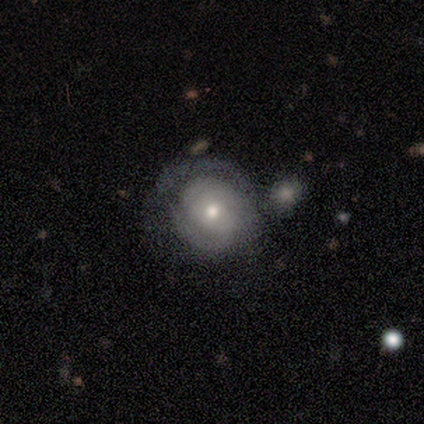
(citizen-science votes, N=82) Morphology: type=featured or disk (72%); edge-on=no (98%); bar=no (88%); spiral arms=yes (76%); winding=tight (84%); arm count=2 (45%); bulge=moderate (72%); merging=none (35%).